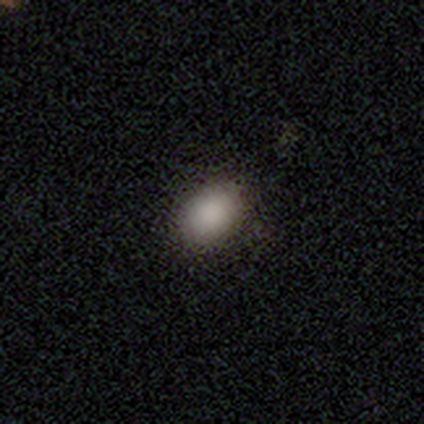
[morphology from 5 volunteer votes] A smooth galaxy with no disk features (80%) that is round (50%, tied with in between).

Vote fractions:
- Smooth or featured? smooth: 80% / star or artifact: 20% / featured or disk: 0%
- How rounded? round: 50% (tied) / in between: 50% (tied) / cigar-shaped: 0%
- Merging? none: 100% / minor disturbance: 0% / major disturbance: 0% / merger: 0%